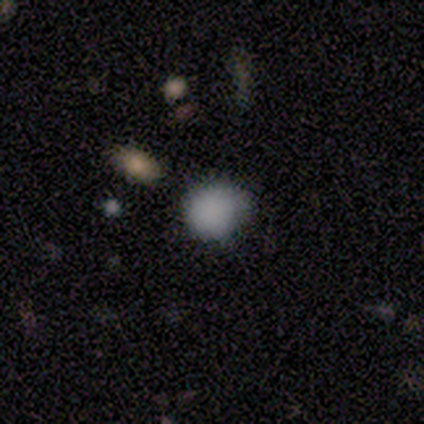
Q: Smooth or featured?
A: smooth (69%); runner-up: star or artifact (19%)
Q: How rounded?
A: round (82%); runner-up: in between (18%)
Q: Merging?
A: none (54%); runner-up: minor disturbance (23%)